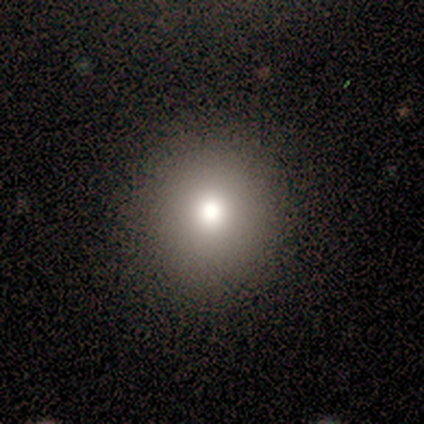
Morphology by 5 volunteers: A smooth galaxy with no disk features (60%) that is round (100%). Merging: none (67%).